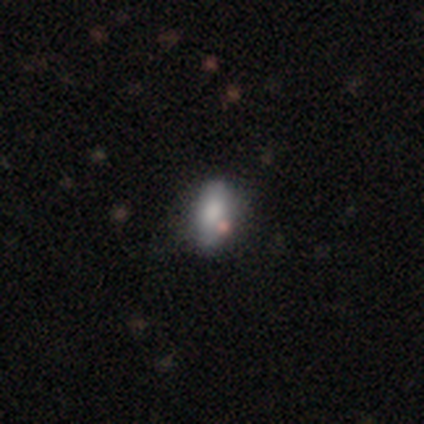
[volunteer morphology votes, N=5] This is clearly a smooth galaxy (100%). How rounded: clearly in between (80%). Merging: likely none (60%).